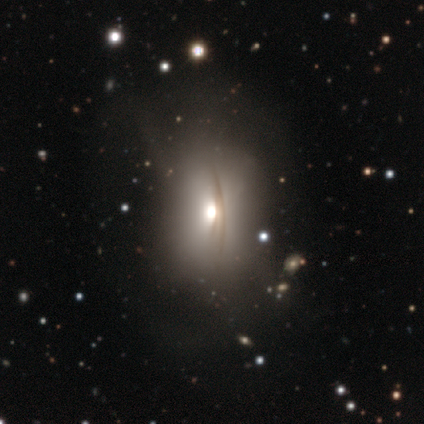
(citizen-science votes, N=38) smooth_or_featured: smooth (p=0.47) [alt: featured or disk p=0.37]
how_rounded: in between (p=0.78) [alt: round p=0.17]
merging: none (p=0.34) [tied with: major disturbance p=0.34]